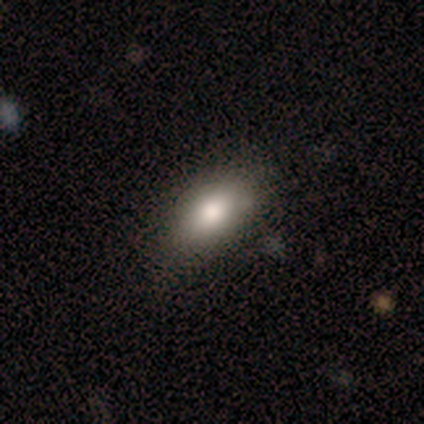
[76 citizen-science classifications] Smooth or featured? smooth (87%)
How rounded? in between (92%)
Merging? none (43%)